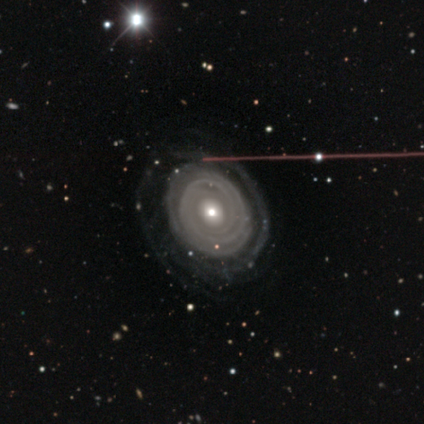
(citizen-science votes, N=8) A featured or disk galaxy (62%) with no bar (100%), tight (100%) spiral arms (80%) and a small central bulge (60%). Merging: none (100%).